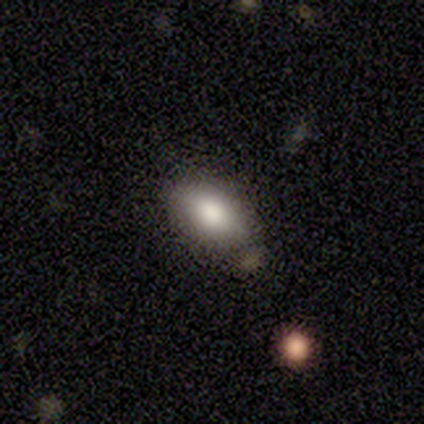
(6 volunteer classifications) Smooth or featured: smooth — 50% (star or artifact — 33%)
How rounded: in between — 100%
Merging: none — 75% (merger — 25%)